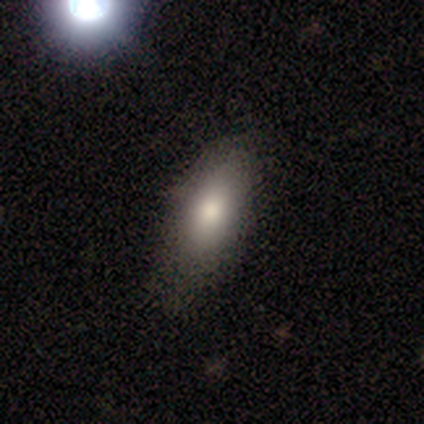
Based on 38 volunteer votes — smooth_or_featured: smooth (p=0.76) [alt: featured or disk p=0.13]
how_rounded: in between (p=0.76) [alt: cigar-shaped p=0.21]
merging: none (p=0.56) [alt: minor disturbance p=0.32]